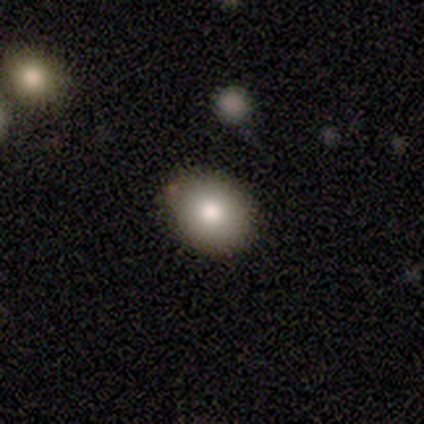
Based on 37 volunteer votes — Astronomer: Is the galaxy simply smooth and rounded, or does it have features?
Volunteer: smooth — 84%.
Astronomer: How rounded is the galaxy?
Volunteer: in between — 52% (runner-up: round, 48%).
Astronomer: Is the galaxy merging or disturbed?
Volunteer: none — 92%.